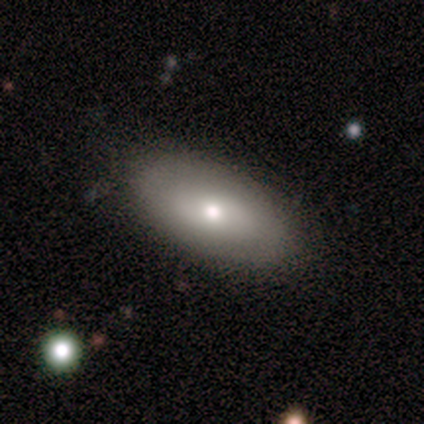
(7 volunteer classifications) A smooth galaxy with no disk features (57%) that is in between round and cigar-shaped (75%).

Vote fractions:
- Smooth or featured? smooth: 57% / featured or disk: 43% / star or artifact: 0%
- How rounded? in between: 75% / cigar-shaped: 25% / round: 0%
- Merging? none: 100% / minor disturbance: 0% / major disturbance: 0% / merger: 0%